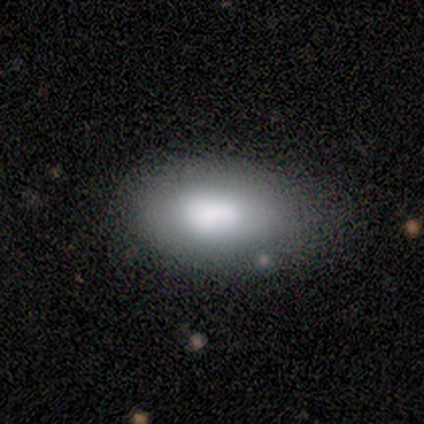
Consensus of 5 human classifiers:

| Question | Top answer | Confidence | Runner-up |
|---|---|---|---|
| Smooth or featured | smooth | 60% | featured or disk (40%) |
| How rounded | in between | 100% | — |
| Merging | none | 40% | tied: minor disturbance (40%) |